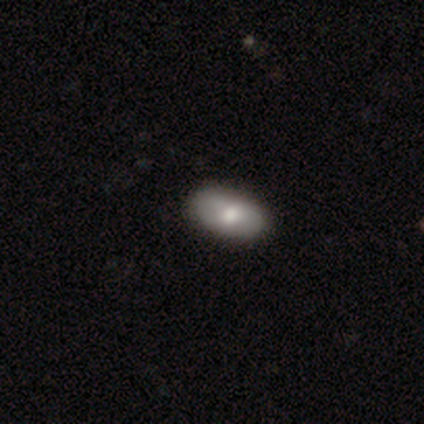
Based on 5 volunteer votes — smooth 80%, star or artifact 20%, featured or disk 0%. Down the decision tree: how rounded — in between (75%); merging — none (100%).